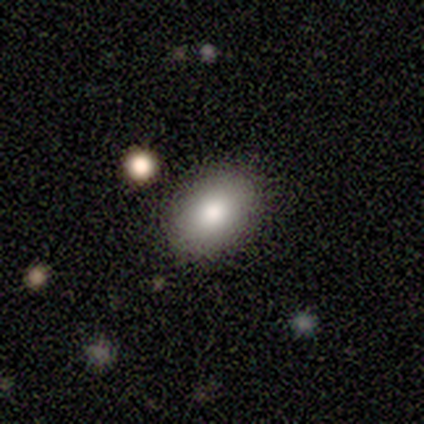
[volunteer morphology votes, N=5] Smooth or featured?
  - smooth: 100% *
  - featured or disk: 0%
  - star or artifact: 0%
How rounded?
  - in between: 80% *
  - round: 20%
  - cigar-shaped: 0%
Merging?
  - none: 80% *
  - major disturbance: 20%
  - minor disturbance: 0%
  - merger: 0%